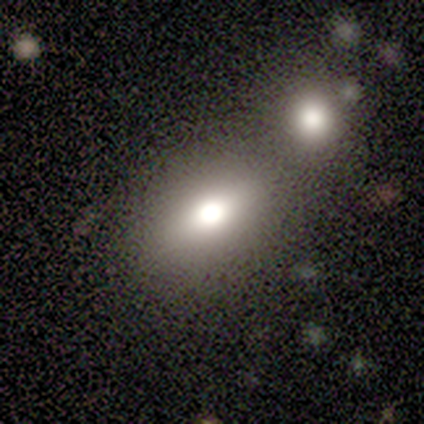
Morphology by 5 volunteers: This appears to be a smooth galaxy with no disk features (80%) that is in between round and cigar-shaped (100%). Merging: none (60%).